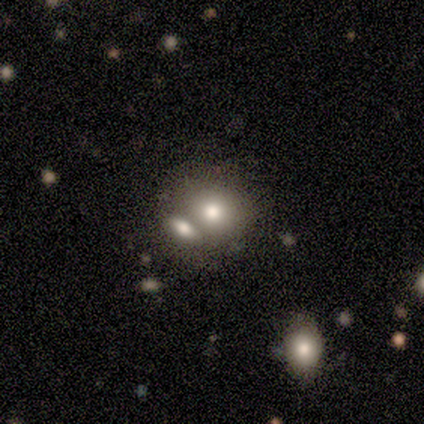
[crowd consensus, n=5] Morphology: type=smooth (100%); roundness=round (80%); merging=merger (80%).